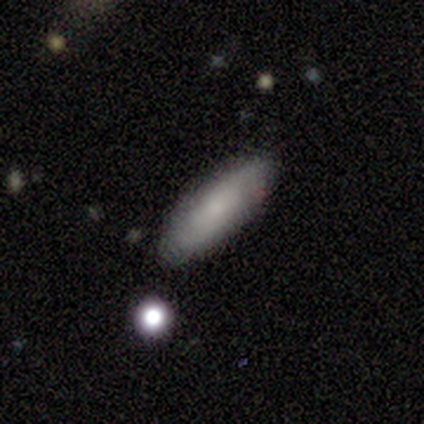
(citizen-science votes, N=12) smooth-or-featured: smooth: 58% | featured or disk: 33% | star or artifact: 8%
  how-rounded: in between: 57% | cigar-shaped: 43% | round: 0%
  merging: none: 91% | major disturbance: 9% | minor disturbance: 0% | merger: 0%